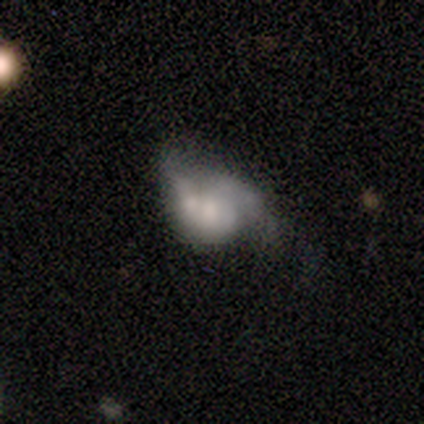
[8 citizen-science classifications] smooth-or-featured: smooth: 50% | featured or disk: 38% | star or artifact: 12%
  how-rounded: in between: 100% | round: 0% | cigar-shaped: 0%
  merging: major disturbance: 71% | minor disturbance: 29% | none: 0% | merger: 0%